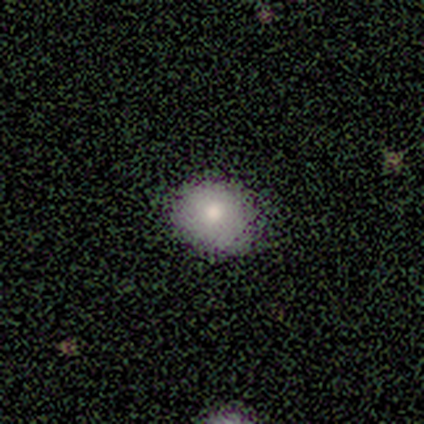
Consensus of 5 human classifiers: Smooth or featured?
  - smooth: 100% *
  - featured or disk: 0%
  - star or artifact: 0%
How rounded?
  - round: 60% *
  - in between: 40%
  - cigar-shaped: 0%
Merging?
  - none: 100% *
  - minor disturbance: 0%
  - major disturbance: 0%
  - merger: 0%